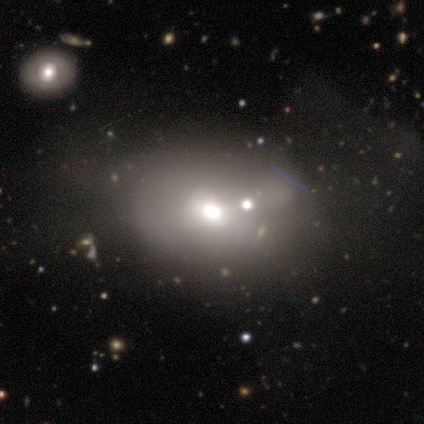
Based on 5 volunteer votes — smooth_or_featured: smooth (p=0.60) [alt: featured or disk p=0.40]
how_rounded: round (p=0.67) [alt: in between p=0.33]
merging: none (p=0.60) [alt: minor disturbance p=0.20]